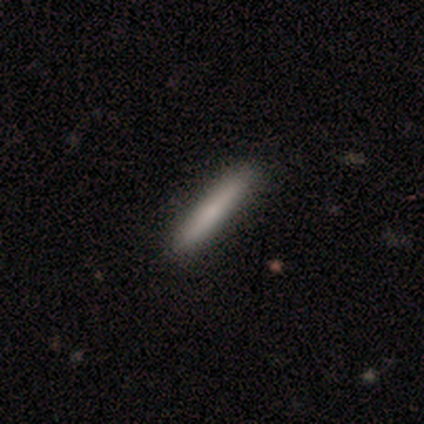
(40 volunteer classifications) A smooth galaxy with no disk features (62%) that is cigar-shaped (96%). Merging: none (61%).